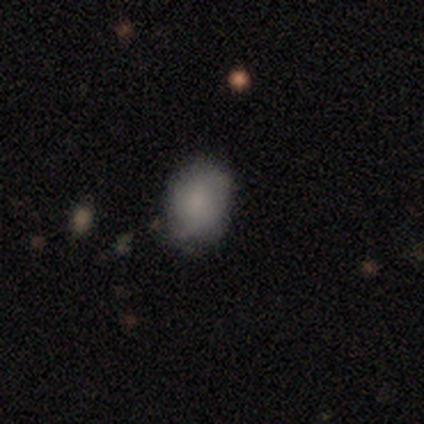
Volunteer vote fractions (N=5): Overall: smooth (80%). How rounded: round (50%, tied with in between). Merging: none (80%).